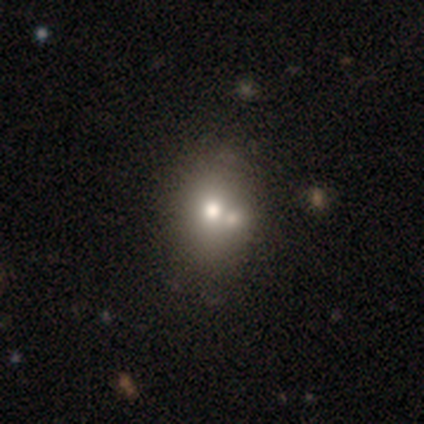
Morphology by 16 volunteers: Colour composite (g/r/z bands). It shows a smooth galaxy with no disk features (69%) that is round (55%). Merging: none (60%).